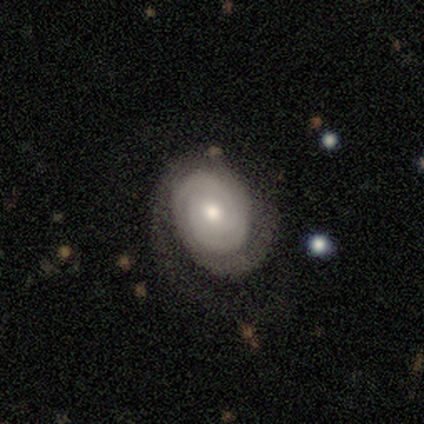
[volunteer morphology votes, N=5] Smooth or featured? 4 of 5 (80%) said featured or disk. Edge-on disk? 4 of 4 (100%) said no. Bar? 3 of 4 (75%) said weak. Spiral arms? 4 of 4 (100%) said yes. Spiral winding? 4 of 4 (100%) said tight. Spiral arm count? 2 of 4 (50%) said 2. Bulge size? 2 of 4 (50%, tied with small) said moderate. Merging? 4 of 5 (80%) said none.